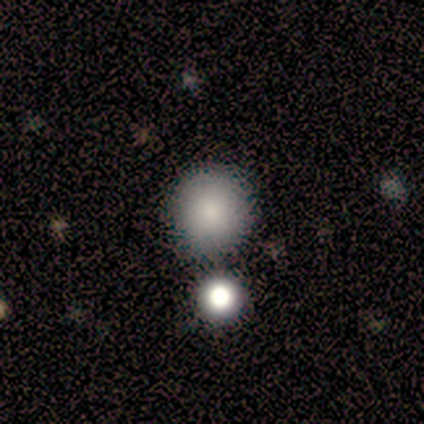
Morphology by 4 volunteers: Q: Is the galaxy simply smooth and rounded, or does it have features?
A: smooth — 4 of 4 (100%).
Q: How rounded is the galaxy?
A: round — 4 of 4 (100%).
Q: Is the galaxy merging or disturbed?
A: none — 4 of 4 (100%).